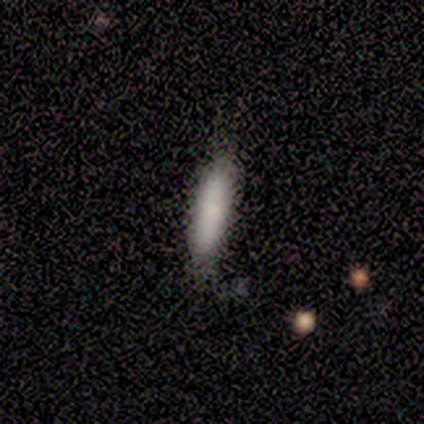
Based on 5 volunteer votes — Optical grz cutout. It shows a smooth galaxy with no disk features (100%) that is cigar-shaped (60%). Merging: minor disturbance (60%).